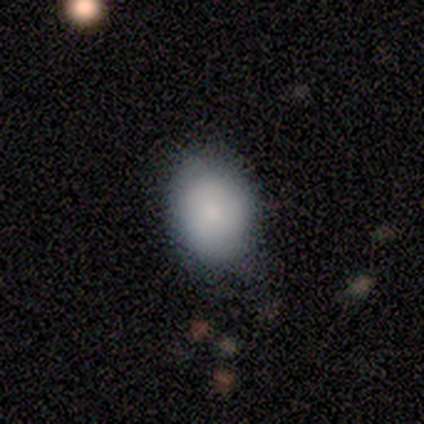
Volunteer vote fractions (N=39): Morphology: type=smooth (82%); roundness=in between (81%); merging=none (49%).